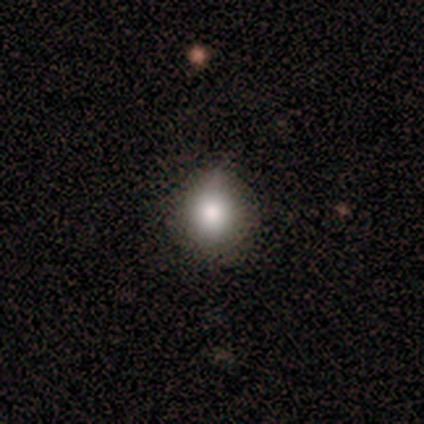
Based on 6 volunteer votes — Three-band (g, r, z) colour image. It shows a smooth galaxy with no disk features (83%) that is round (100%). Merging: none (67%).